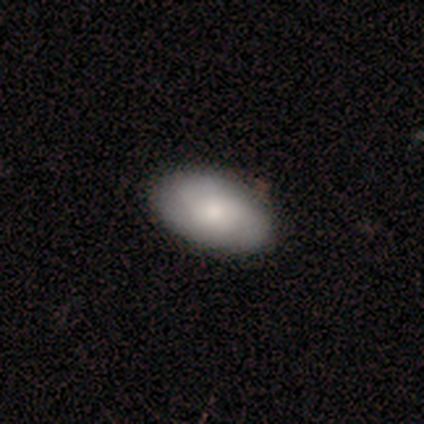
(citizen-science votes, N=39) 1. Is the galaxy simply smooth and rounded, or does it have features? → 62% smooth, 33% featured or disk, 5% star or artifact.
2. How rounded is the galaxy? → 100% in between, 0% round, 0% cigar-shaped.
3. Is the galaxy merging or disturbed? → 59% none, 3% minor disturbance, 0% major disturbance, 0% merger.